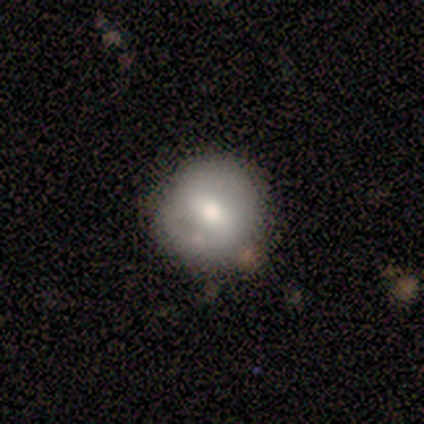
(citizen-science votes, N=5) Smooth or featured? smooth (100%)
How rounded? round (80%)
Merging? none (80%)